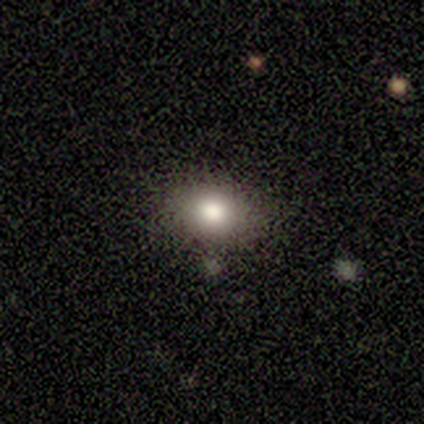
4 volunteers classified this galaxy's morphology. Smooth or featured?
  - smooth: 75% *
  - featured or disk: 25%
  - star or artifact: 0%
How rounded?
  - in between: 67% *
  - round: 33%
  - cigar-shaped: 0%
Merging?
  - none: 75% *
  - minor disturbance: 25%
  - major disturbance: 0%
  - merger: 0%